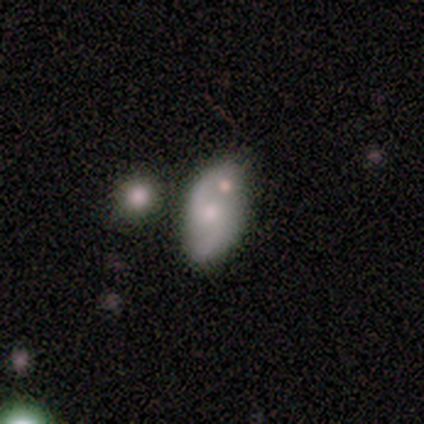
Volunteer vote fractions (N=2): Volunteers were most divided on "edge-on disk" (2-way tie): yes: 50%, no: 50%; "merging" (2-way tie): none: 50%, major disturbance: 50%, minor disturbance: 0%, merger: 0%. More confident: smooth or featured — featured or disk (100%); edge-on bulge — boxy (100%).